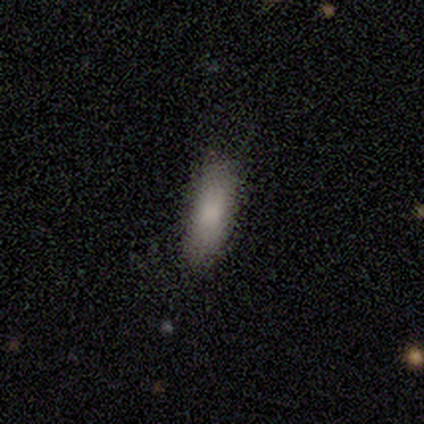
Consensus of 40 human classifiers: Smooth or featured?
  - smooth: 90% *
  - featured or disk: 5%
  - star or artifact: 5%
How rounded?
  - in between: 53% *
  - cigar-shaped: 42%
  - round: 6%
Merging?
  - none: 74% *
  - minor disturbance: 26%
  - major disturbance: 0%
  - merger: 0%